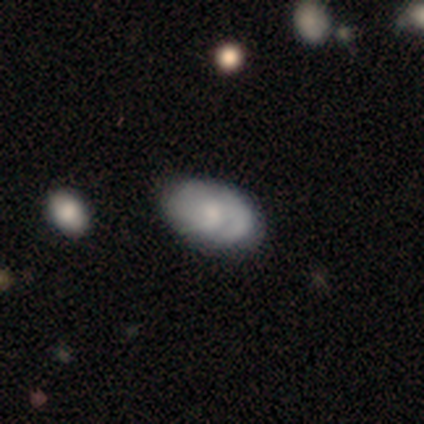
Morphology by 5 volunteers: Overall: smooth (100%). How rounded: in between (100%). Merging: none (80%).